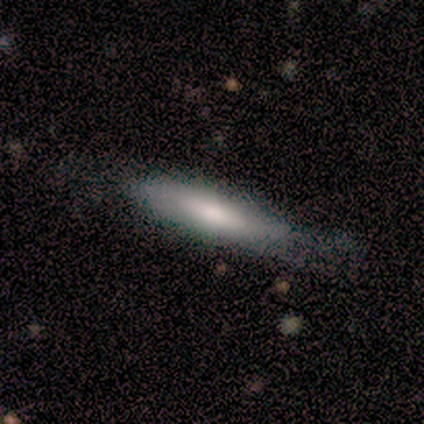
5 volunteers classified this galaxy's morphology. Smooth or featured: smooth — 60% (featured or disk — 40%)
How rounded: cigar-shaped — 100%
Merging: none — 80% (minor disturbance — 20%)